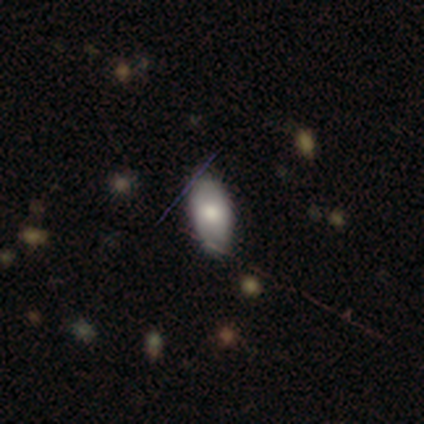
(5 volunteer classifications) Smooth or featured? smooth (60%)
How rounded? in between (100%)
Merging? none (80%)